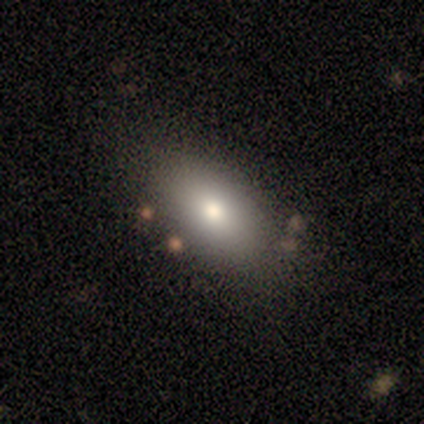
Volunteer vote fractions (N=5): Smooth or featured: smooth — 100%
How rounded: in between — 80% (round — 20%)
Merging: none — 80% (major disturbance — 20%)